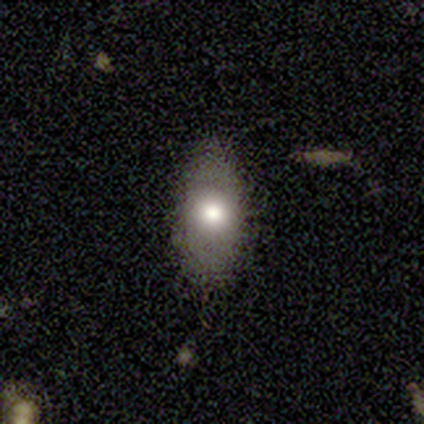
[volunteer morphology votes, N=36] Overall: smooth (64%; featured or disk 33%). How rounded: in between (87%). Merging: none (74%).